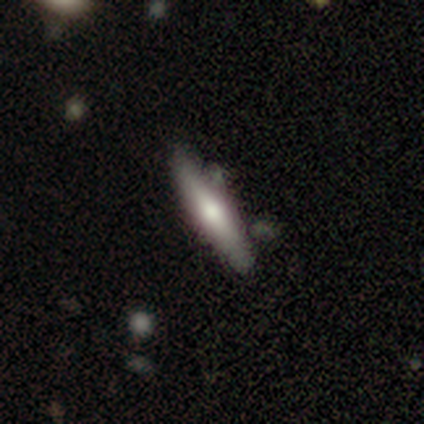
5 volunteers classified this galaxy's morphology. Smooth or featured: smooth — 80% (featured or disk — 20%)
How rounded: cigar-shaped — 100%
Merging: none — 60% (minor disturbance — 40%)